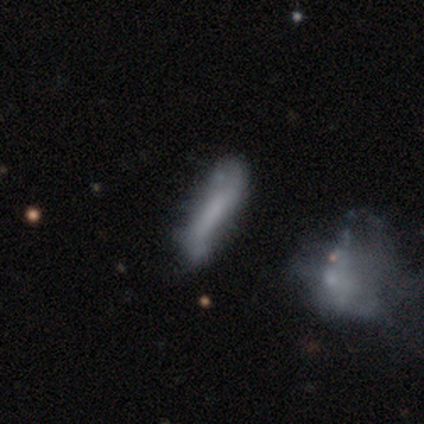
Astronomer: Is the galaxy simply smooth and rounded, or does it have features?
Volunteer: smooth — 60% (runner-up: featured or disk, 40%).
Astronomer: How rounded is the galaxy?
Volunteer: cigar-shaped — 67%.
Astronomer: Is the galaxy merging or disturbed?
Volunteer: none — 60%.